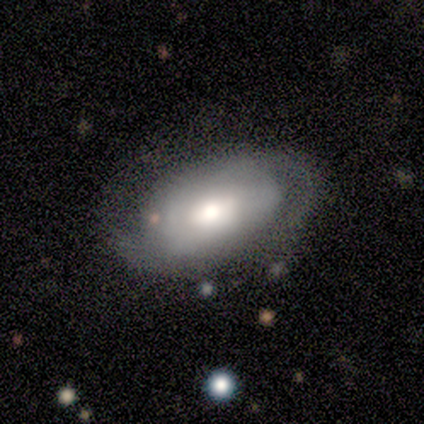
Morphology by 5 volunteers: Smooth or featured: featured or disk — 80% (smooth — 20%)
Edge-on disk: no — 75% (yes — 25%)
Bar: no — 67% (strong — 33%)
Spiral arms: yes — 100%
Spiral winding: tight — 67% (medium — 33%)
Spiral arm count: 2 — 100%
Bulge size: moderate — 67% (none — 33%)
Merging: none — 80% (minor disturbance — 20%)